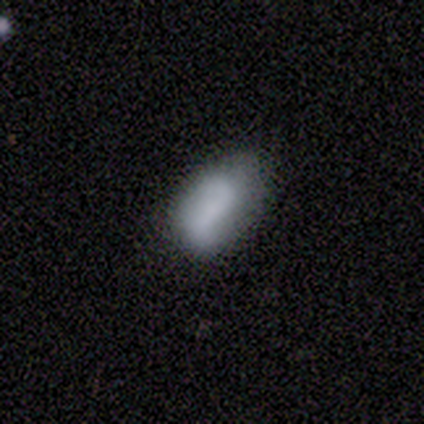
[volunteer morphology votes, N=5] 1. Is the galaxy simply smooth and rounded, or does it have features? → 60% smooth, 40% featured or disk, 0% star or artifact.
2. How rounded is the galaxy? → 100% in between, 0% round, 0% cigar-shaped.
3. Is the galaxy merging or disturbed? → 80% none, 20% minor disturbance, 0% major disturbance, 0% merger.